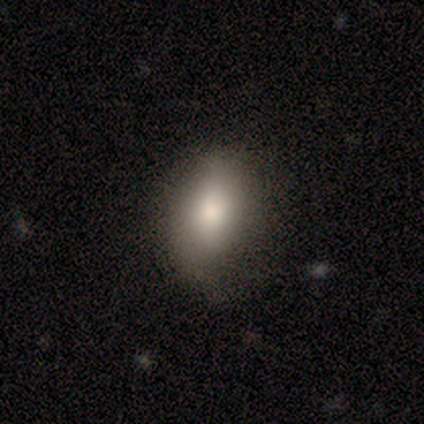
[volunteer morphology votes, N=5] A smooth galaxy with no disk features (80%) that is in between round and cigar-shaped (75%). Merging: none (80%).